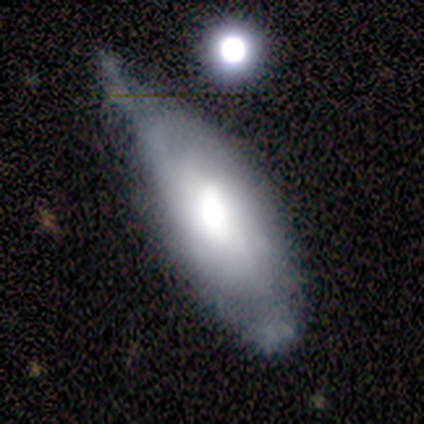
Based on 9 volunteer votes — Overall: smooth (44%, tied with featured or disk). How rounded: in between (100%). Merging: minor disturbance (50%; none 25%).